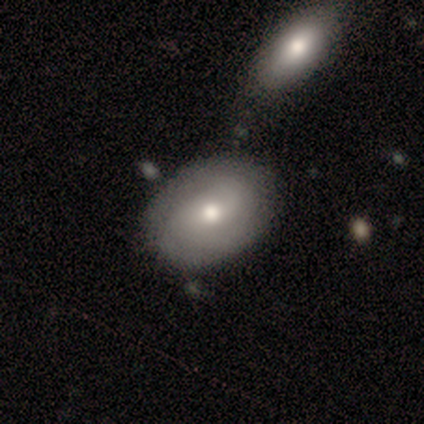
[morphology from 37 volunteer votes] A smooth galaxy with no disk features (46%, tied with featured or disk) that is in between round and cigar-shaped (65%).

Vote fractions:
- Smooth or featured? smooth: 46% (tied) / featured or disk: 46% (tied) / star or artifact: 8%
- How rounded? in between: 65% / round: 29% / cigar-shaped: 6%
- Merging? none: 68% / minor disturbance: 18% / major disturbance: 12% / merger: 3%